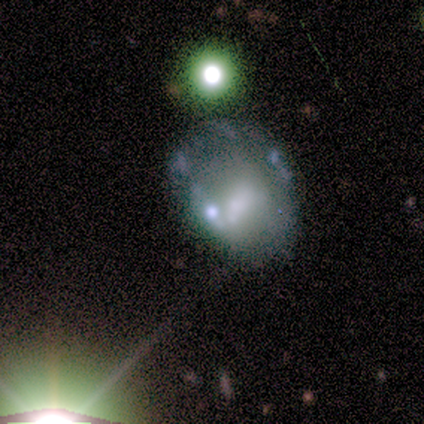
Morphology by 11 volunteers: smooth-or-featured: smooth: 36% (tied) | star or artifact: 36% (tied) | featured or disk: 27%
  how-rounded: round: 50% (tied) | in between: 50% (tied) | cigar-shaped: 0%
  merging: major disturbance: 57% | none: 43% | minor disturbance: 0% | merger: 0%